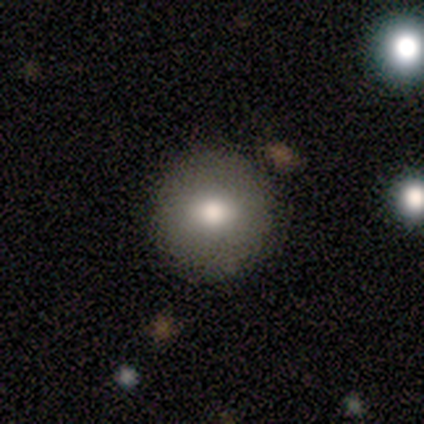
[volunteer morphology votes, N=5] A featured or disk galaxy (60%) with no bar (100%), no spiral arms (100%) and a moderate central bulge (100%). Merging: none (80%).